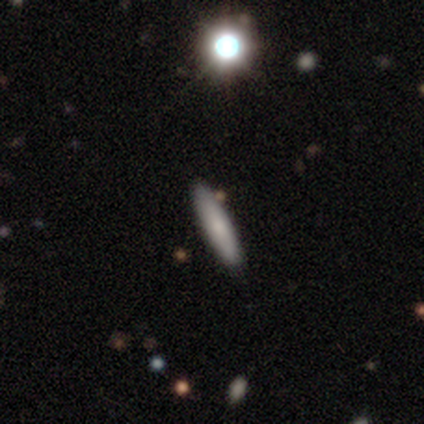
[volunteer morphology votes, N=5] Overall: smooth (100%). How rounded: in between (60%; cigar-shaped 40%). Merging: none (80%).